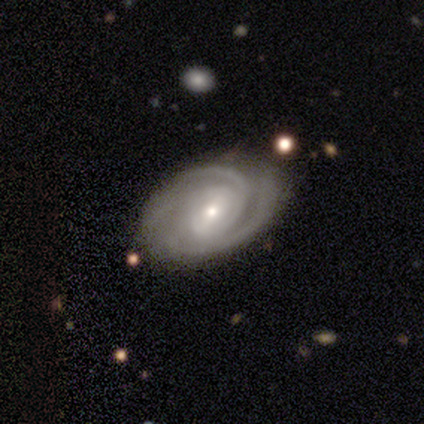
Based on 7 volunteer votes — Smooth or featured? featured or disk (100%)
Edge-on disk? no (86%)
Bar? weak (50%)
Spiral arms? yes (100%)
Spiral winding? tight (50%)
Spiral arm count? 2 (67%)
Bulge size? moderate (50%, tied with small)
Merging? none (86%)